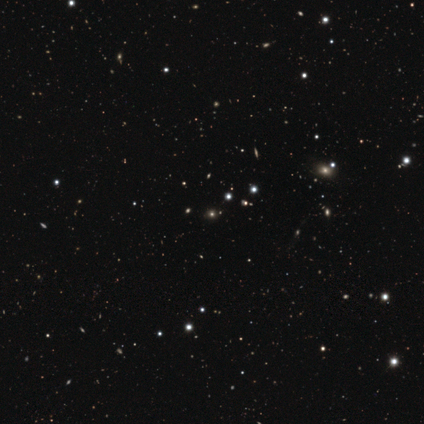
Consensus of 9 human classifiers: Smooth or featured? 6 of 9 (67%) said star or artifact.